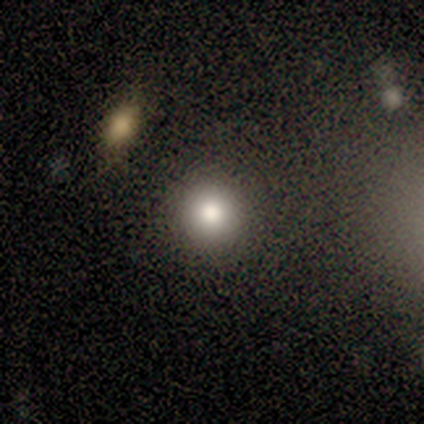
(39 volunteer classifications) Morphology: type=smooth (77%); roundness=round (97%); merging=none (90%).